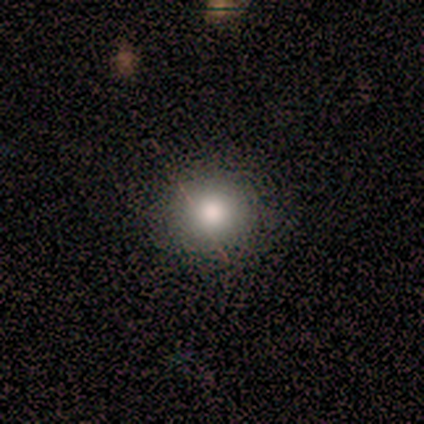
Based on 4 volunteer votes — Smooth or featured: smooth — 75% (featured or disk — 25%)
How rounded: round — 100%
Merging: none — 75% (minor disturbance — 25%)